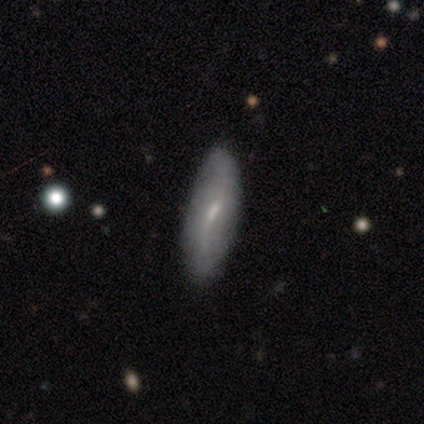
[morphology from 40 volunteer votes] smooth-or-featured: featured or disk: 60% | smooth: 38% | star or artifact: 2%
  disk-edge-on: no: 83% | yes: 17%
    bar: weak: 75% | no: 15% | strong: 10%
    has-spiral-arms: yes: 80% | no: 20%
      spiral-winding: loose: 81% | tight: 12% | medium: 6%
      spiral-arm-count: 2: 69% | 1: 12% | can't tell: 12% | 4: 6% | 3: 0% | more than 4: 0%
    bulge-size: small: 80% | moderate: 10% | large: 5% | none: 5% | dominant: 0%
  merging: none: 72% | minor disturbance: 23% | major disturbance: 5% | merger: 0%